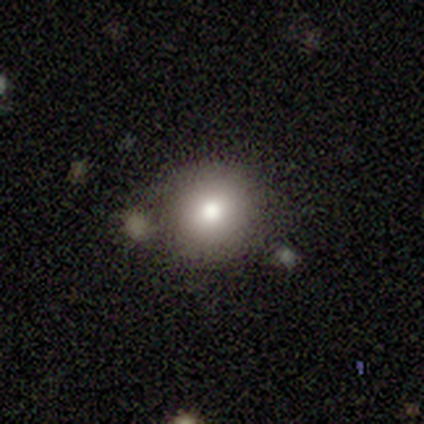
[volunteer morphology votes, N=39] smooth_or_featured: smooth (p=0.79) [alt: featured or disk p=0.10]
how_rounded: round (p=0.97) [alt: in between p=0.03]
merging: none (p=0.74) [alt: minor disturbance p=0.23]